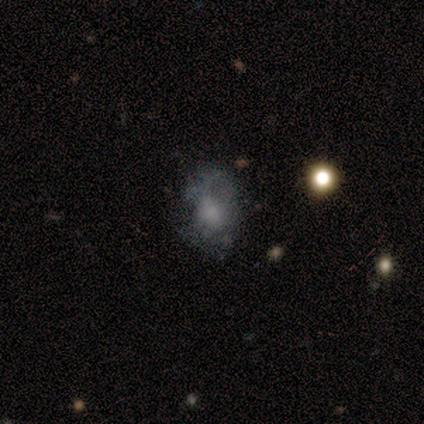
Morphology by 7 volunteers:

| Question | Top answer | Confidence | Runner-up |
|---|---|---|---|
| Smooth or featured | smooth | 71% | featured or disk (29%) |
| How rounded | round | 60% | in between (40%) |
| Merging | none | 86% | major disturbance (14%) |